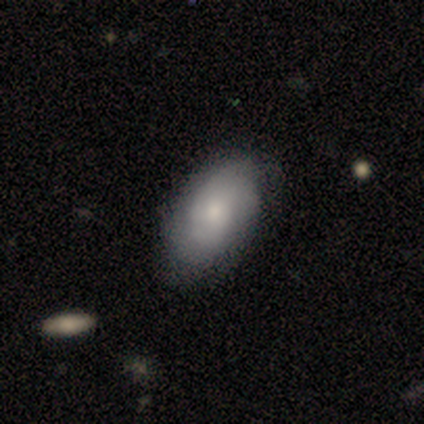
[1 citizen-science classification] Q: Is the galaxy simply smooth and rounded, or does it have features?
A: smooth — 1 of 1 (100%).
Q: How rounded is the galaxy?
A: in between — 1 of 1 (100%).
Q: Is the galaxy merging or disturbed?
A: none — 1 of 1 (100%).